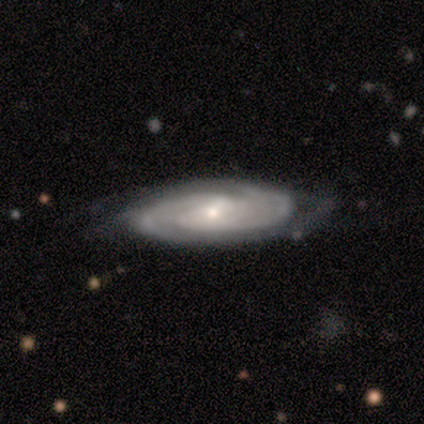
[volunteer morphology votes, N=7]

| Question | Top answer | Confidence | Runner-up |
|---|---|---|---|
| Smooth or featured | featured or disk | 86% | smooth (14%) |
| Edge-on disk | no | 83% | yes (17%) |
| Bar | weak | 60% | no (40%) |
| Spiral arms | yes | 100% | — |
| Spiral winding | tight | 60% | medium (40%) |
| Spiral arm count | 2 | 60% | 3 (20%) |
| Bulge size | moderate | 80% | small (20%) |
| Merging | none | 57% | minor disturbance (29%) |